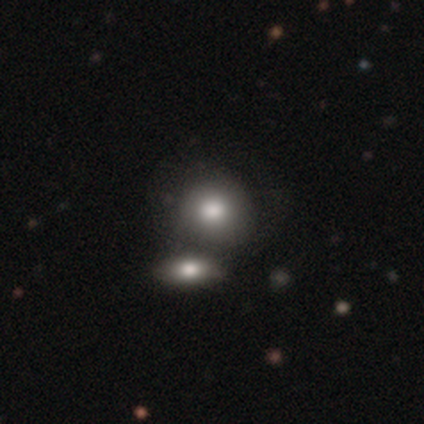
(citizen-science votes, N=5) smooth-or-featured: smooth: 80% | star or artifact: 20% | featured or disk: 0%
  how-rounded: round: 75% | in between: 25% | cigar-shaped: 0%
  merging: none: 50% | minor disturbance: 25% | major disturbance: 25% | merger: 0%